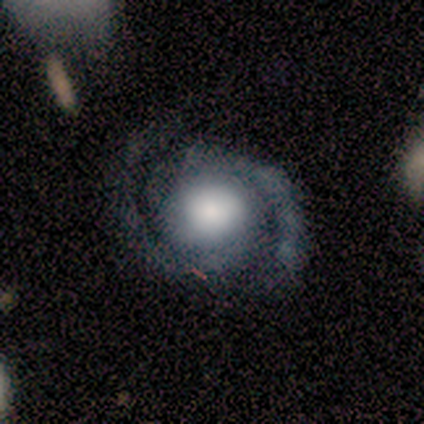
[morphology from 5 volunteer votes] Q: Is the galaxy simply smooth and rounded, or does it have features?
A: featured or disk — 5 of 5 (100%).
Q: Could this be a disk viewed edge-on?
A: no — 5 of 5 (100%).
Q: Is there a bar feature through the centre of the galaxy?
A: no — 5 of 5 (100%).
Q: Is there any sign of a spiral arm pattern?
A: yes — 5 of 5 (100%).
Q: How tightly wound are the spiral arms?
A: tight — 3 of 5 (60%).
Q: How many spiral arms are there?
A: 2 — 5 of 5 (100%).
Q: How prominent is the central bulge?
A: large — 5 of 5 (100%).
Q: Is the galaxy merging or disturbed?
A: none — 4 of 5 (80%).